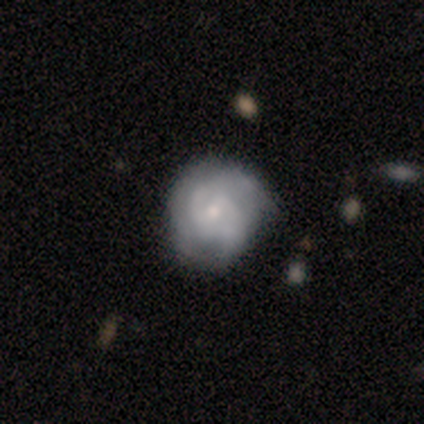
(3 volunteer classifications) A smooth galaxy with no disk features (33%, tied with featured or disk and star or artifact) that is round (100%). Merging: none (100%).